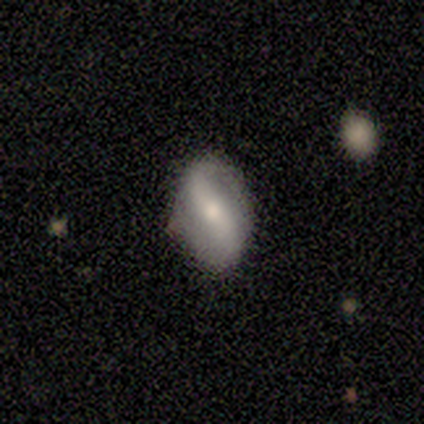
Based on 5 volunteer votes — A featured or disk galaxy (100%) with no bar (60%), 2 (80%) loose (100%) spiral arms (100%) and a small central bulge (60%).

Vote fractions:
- Smooth or featured? featured or disk: 100% / smooth: 0% / star or artifact: 0%
- Edge-on disk? no: 100% / yes: 0%
- Bar? no: 60% / weak: 40% / strong: 0%
- Spiral arms? yes: 100% / no: 0%
- Spiral winding? loose: 100% / tight: 0% / medium: 0%
- Spiral arm count? 2: 80% / can't tell: 20% / 1: 0% / 3: 0% / 4: 0% / more than 4: 0%
- Bulge size? small: 60% / moderate: 40% / dominant: 0% / large: 0% / none: 0%
- Merging? none: 100% / minor disturbance: 0% / major disturbance: 0% / merger: 0%